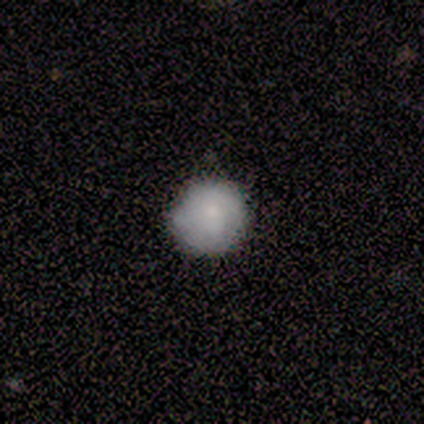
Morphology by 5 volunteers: Smooth or featured? 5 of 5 (100%) said smooth. How rounded? 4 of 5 (80%) said round. Merging? 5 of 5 (100%) said none.